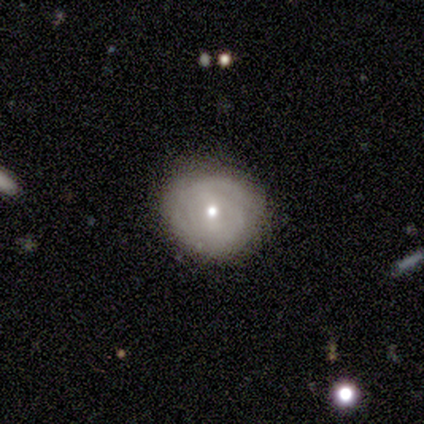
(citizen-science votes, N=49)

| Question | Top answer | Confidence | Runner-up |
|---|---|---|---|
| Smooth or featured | featured or disk | 57% | smooth (35%) |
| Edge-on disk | no | 93% | yes (7%) |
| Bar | no | 50% | weak (42%) |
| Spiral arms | yes | 88% | no (12%) |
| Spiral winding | tight | 83% | medium (17%) |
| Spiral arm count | can't tell | 61% | 2 (26%) |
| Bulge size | moderate | 65% | small (31%) |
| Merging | none | 76% | minor disturbance (18%) |